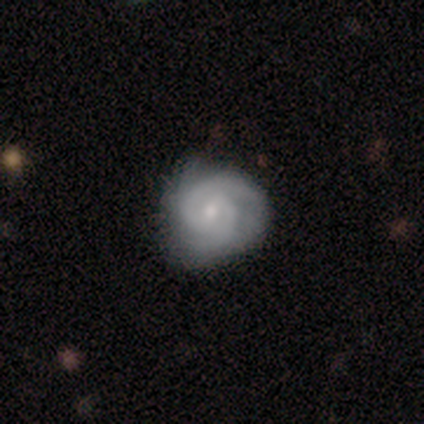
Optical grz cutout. It shows a featured or disk galaxy (80%) with no bar (75%), 2 (100%) tight (50%) spiral arms (100%) and a moderate central bulge (50%). Merging: none (75%).